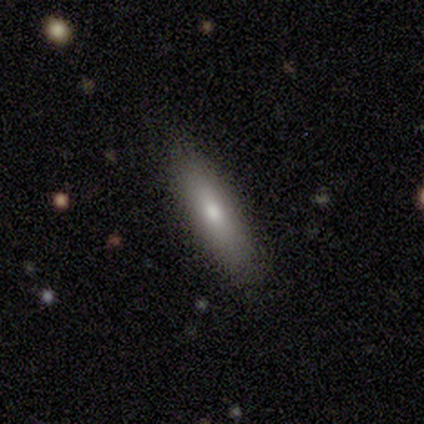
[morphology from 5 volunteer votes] smooth 100%, featured or disk 0%, star or artifact 0%. Down the decision tree: how rounded — cigar-shaped (80%); merging — none (100%).